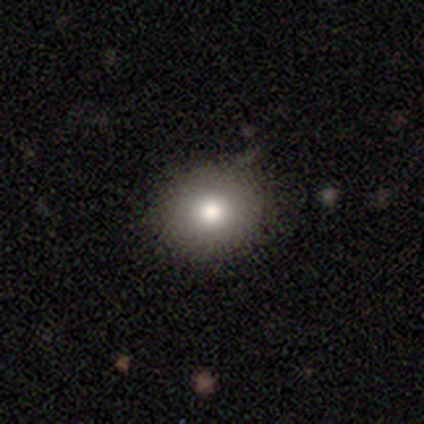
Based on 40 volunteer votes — A smooth galaxy with no disk features (85%) that is round (82%). Merging: none (59%).